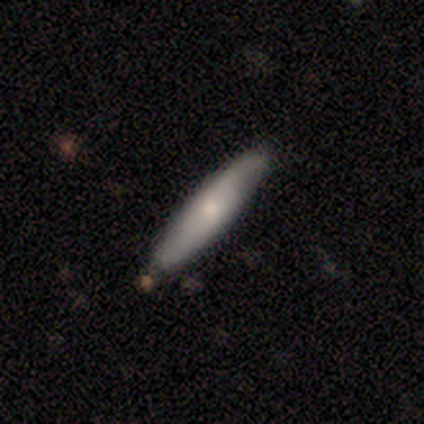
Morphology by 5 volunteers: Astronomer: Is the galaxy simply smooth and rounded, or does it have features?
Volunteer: smooth — 80%.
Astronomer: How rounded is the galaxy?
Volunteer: cigar-shaped — 75%.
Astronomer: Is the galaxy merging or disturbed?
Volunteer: none — 60%.